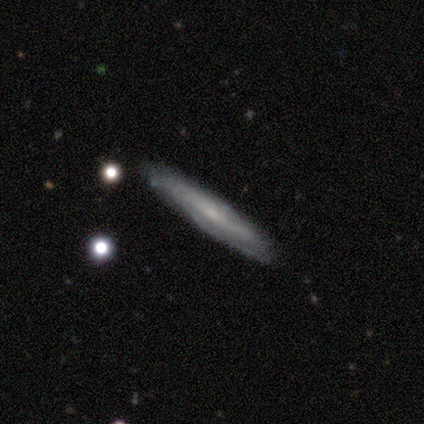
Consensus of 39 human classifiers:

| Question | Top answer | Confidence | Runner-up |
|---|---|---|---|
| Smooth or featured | featured or disk | 72% | smooth (23%) |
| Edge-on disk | yes | 68% | no (32%) |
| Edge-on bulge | none | 89% | rounded (11%) |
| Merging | none | 92% | minor disturbance (5%) |